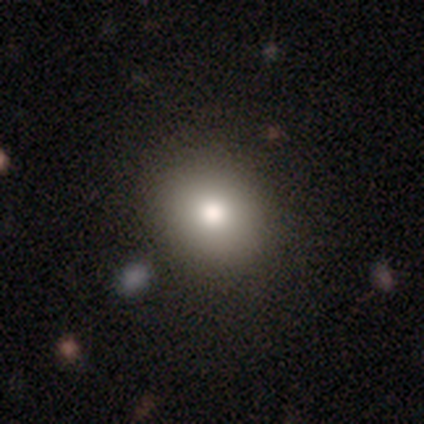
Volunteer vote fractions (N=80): smooth 81%, featured or disk 10%, star or artifact 9%. Down the decision tree: how rounded — round (83%); merging — none (58%).